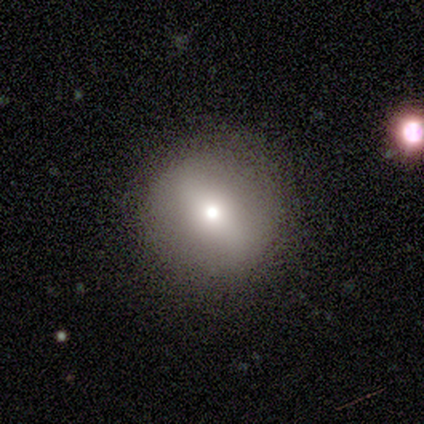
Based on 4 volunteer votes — Smooth or featured: smooth — 75% (featured or disk — 25%)
How rounded: round — 100%
Merging: none — 100%